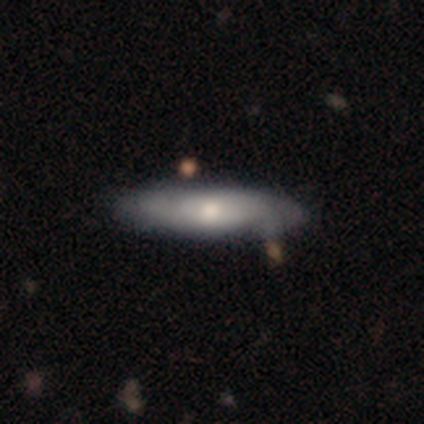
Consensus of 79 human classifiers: smooth 49% (tied), featured or disk 49% (tied), star or artifact 1%. Down the decision tree: how rounded — cigar-shaped (69%); merging — none (40%).